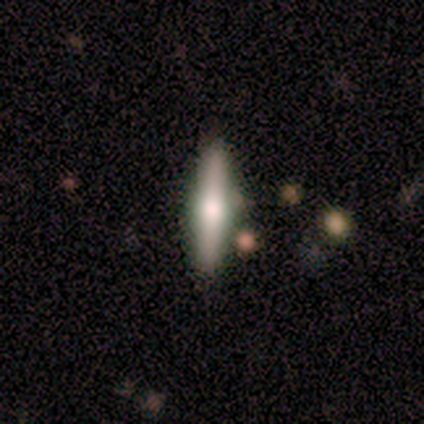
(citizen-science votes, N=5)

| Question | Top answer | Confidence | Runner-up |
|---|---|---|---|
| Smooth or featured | featured or disk | 80% | smooth (20%) |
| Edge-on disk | yes | 100% | — |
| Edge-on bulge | rounded | 75% | boxy (25%) |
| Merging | none | 100% | — |